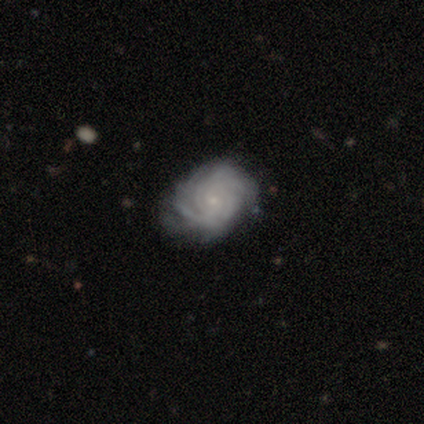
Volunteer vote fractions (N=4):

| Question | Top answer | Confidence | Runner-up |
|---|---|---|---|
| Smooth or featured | featured or disk | 75% | star or artifact (25%) |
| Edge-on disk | no | 100% | — |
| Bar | no | 67% | weak (33%) |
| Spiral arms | yes | 100% | — |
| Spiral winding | tight | 67% | medium (33%) |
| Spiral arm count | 4 | 67% | 2 (33%) |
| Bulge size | small | 100% | — |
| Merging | minor disturbance | 67% | none (33%) |